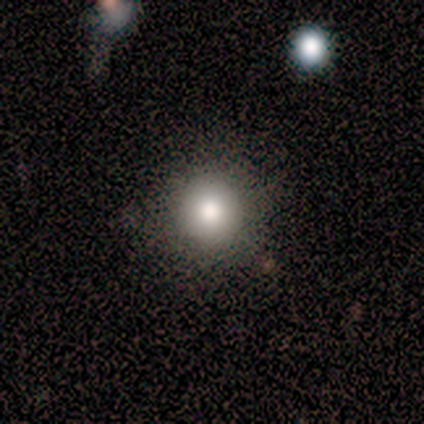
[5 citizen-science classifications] Volunteers were most divided on "smooth or featured": smooth: 80%, featured or disk: 20%, star or artifact: 0%. More confident: how rounded — round (100%); merging — none (100%).